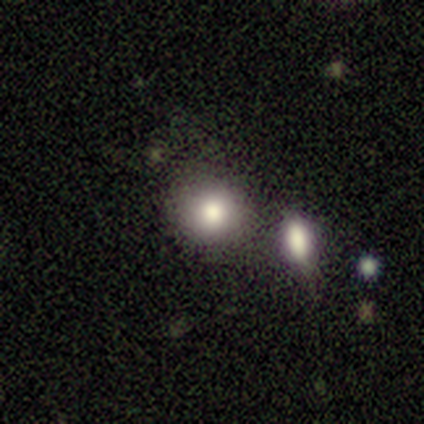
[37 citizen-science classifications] This is likely a smooth galaxy (73%). How rounded: clearly round (89%). Merging: likely none (75%).